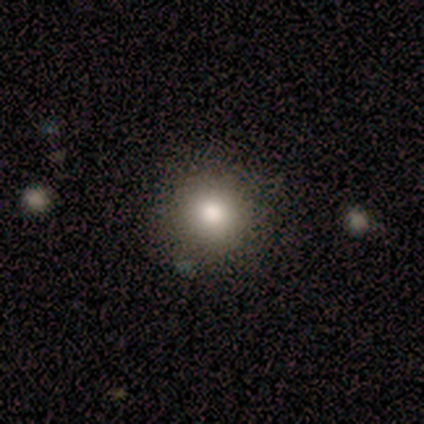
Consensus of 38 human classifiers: Volunteers were most divided on "how rounded": round: 91%, in between: 9%, cigar-shaped: 0%. More confident: smooth or featured — smooth (92%); merging — none (91%).